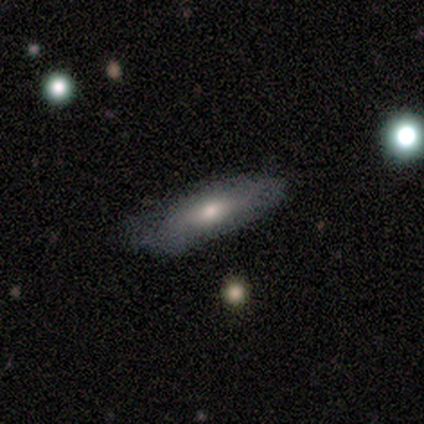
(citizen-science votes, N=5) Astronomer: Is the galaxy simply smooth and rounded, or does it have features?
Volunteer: smooth — 80%.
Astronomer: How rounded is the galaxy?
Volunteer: cigar-shaped — 75%.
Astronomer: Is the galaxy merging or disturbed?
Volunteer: none — 60% (runner-up: minor disturbance, 40%).